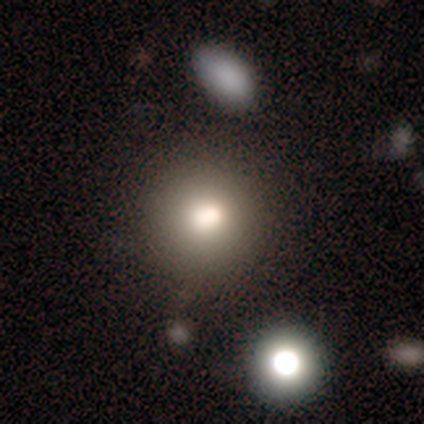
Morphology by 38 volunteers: Smooth or featured? 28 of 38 (74%) said smooth. How rounded? 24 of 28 (86%) said round. Merging? 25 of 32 (78%) said none.